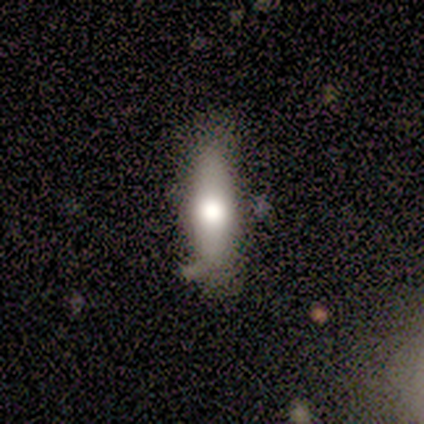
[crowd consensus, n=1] Smooth or featured? 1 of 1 (100%) said smooth. How rounded? 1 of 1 (100%) said cigar-shaped. Merging? 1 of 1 (100%) said minor disturbance.